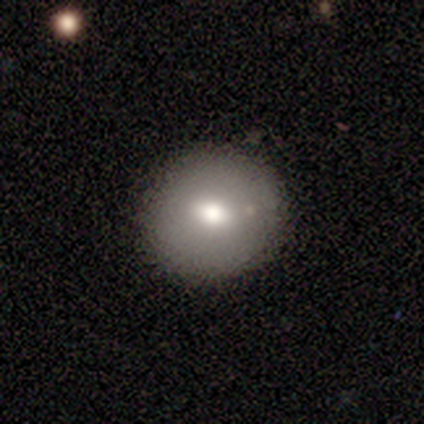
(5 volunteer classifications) Morphology: type=smooth (40%, tied with featured or disk); roundness=round (100%); merging=none (75%).